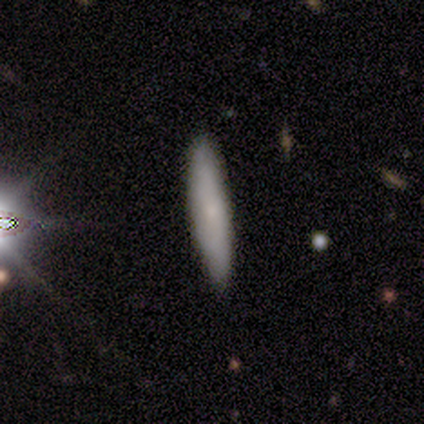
Consensus on every question: smooth or featured — smooth (100%); how rounded — cigar-shaped (100%); merging — none (100%).